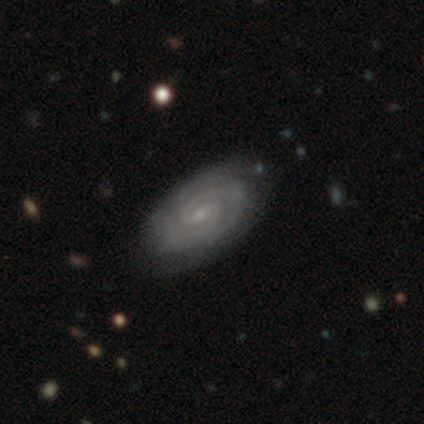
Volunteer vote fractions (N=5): Morphology: type=featured or disk (80%); edge-on=no (100%); bar=weak (75%); spiral arms=yes (100%); winding=tight (75%); arm count=2 (50%); bulge=small (100%); merging=none (80%).